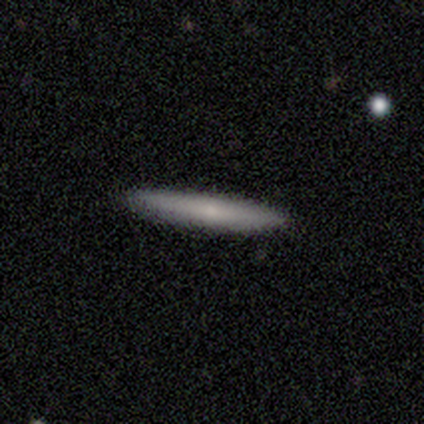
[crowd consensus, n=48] Smooth or featured? 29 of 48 (60%) said smooth. How rounded? 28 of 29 (97%) said cigar-shaped. Merging? 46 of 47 (98%) said none.